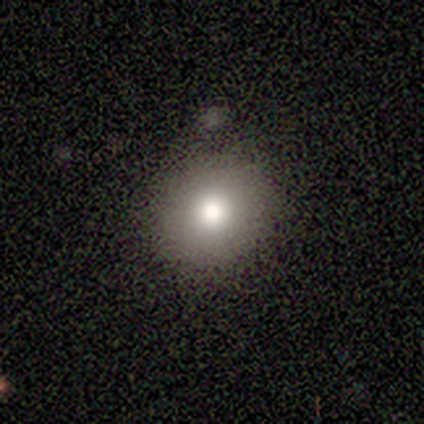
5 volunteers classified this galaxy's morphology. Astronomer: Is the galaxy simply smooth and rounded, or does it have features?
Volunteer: smooth — 100%.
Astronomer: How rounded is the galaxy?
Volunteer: round — 80%.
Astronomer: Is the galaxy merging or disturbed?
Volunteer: none — 100%.